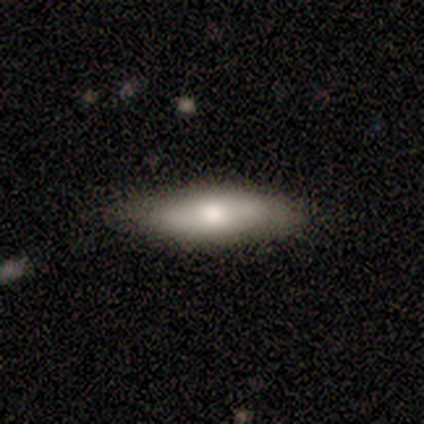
Smooth or featured: smooth — 71% (featured or disk — 29%)
How rounded: cigar-shaped — 60% (in between — 40%)
Merging: none — 100%